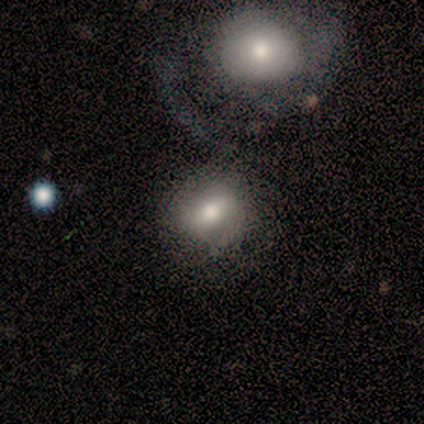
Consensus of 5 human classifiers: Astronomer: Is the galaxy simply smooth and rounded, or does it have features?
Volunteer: smooth — 80%.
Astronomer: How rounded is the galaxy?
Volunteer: round — 50%, tied with in between at 50%.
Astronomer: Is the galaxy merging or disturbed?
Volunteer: none — 40%, tied with merger at 40%.